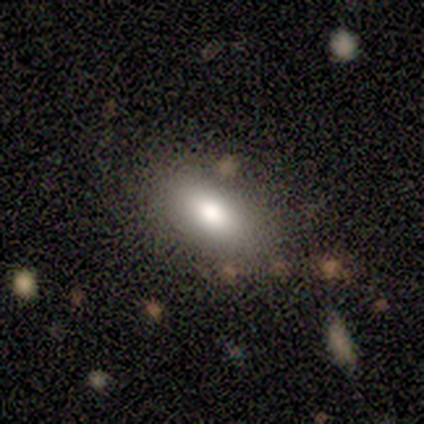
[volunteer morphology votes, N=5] Smooth or featured? smooth (100%)
How rounded? in between (80%)
Merging? none (80%)